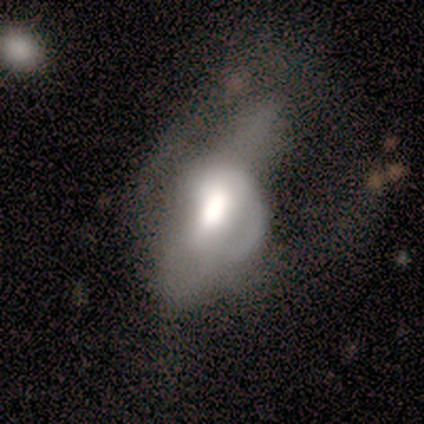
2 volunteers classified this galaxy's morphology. A smooth galaxy with no disk features (100%) that is in between round and cigar-shaped (100%). Merging: minor disturbance (50%, tied with major disturbance).